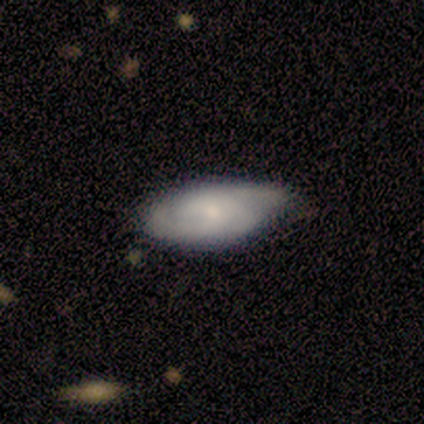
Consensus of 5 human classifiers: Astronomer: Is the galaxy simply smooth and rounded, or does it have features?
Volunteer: featured or disk — 60% (runner-up: smooth, 40%).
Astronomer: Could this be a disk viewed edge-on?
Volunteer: no — 100%.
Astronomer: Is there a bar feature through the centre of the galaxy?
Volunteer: no — 67%.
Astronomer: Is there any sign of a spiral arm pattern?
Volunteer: yes — 100%.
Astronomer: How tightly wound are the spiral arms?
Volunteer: medium — 67%.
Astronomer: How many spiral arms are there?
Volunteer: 2 — 67%.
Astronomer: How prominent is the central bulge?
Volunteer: small — 100%.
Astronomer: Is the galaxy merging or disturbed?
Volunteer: minor disturbance — 60% (runner-up: none, 40%).